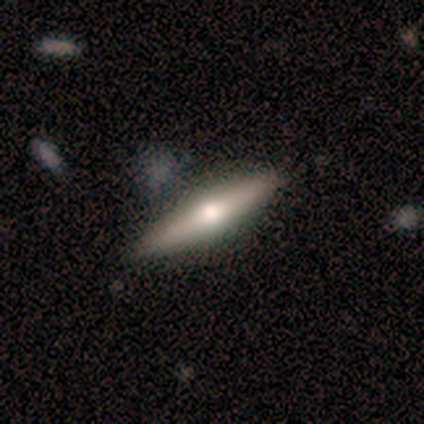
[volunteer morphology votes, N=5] Smooth or featured? 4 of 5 (80%) said smooth. How rounded? 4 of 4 (100%) said cigar-shaped. Merging? 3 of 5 (60%) said none.